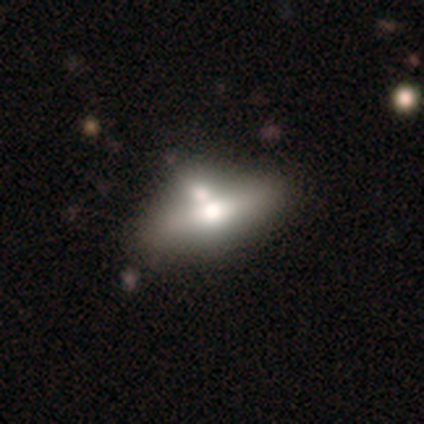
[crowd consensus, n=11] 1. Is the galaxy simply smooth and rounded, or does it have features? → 73% featured or disk, 27% smooth, 0% star or artifact.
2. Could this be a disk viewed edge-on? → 75% no, 25% yes.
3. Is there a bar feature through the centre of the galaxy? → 100% no, 0% strong, 0% weak.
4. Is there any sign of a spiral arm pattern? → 100% no, 0% yes.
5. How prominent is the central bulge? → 83% moderate, 17% small, 0% dominant, 0% large, 0% none.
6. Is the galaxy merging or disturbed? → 36% none (tied), 36% minor disturbance (tied), 18% merger, 9% major disturbance.